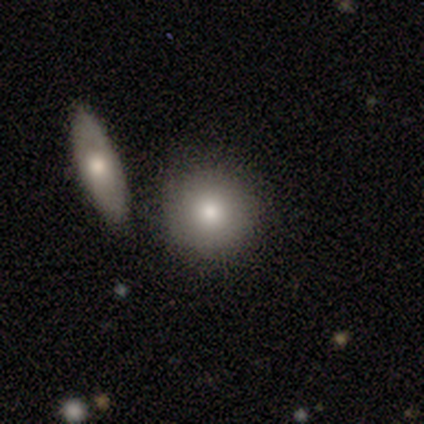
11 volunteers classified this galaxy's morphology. type=smooth (82%); roundness=round (89%); merging=none (90%).